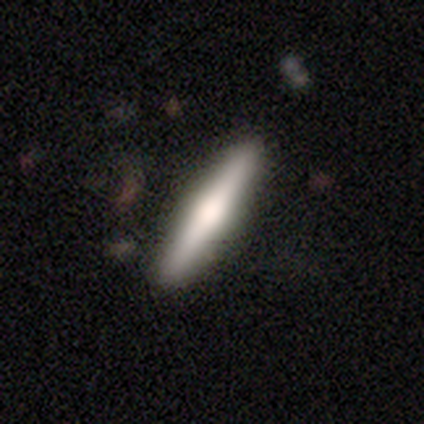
Volunteers were most divided on "smooth or featured": featured or disk: 54%, smooth: 41%, star or artifact: 5%. More confident: merging — none (97%); edge-on disk — yes (95%); edge-on bulge — rounded (65%).